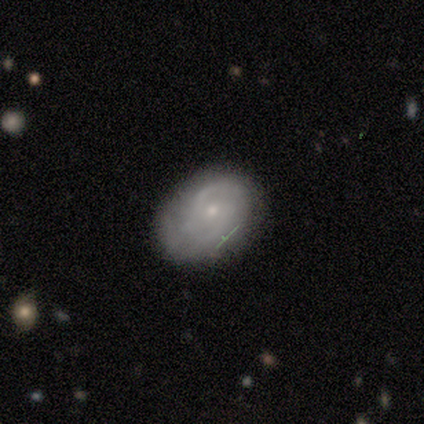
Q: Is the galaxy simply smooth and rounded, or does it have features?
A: featured or disk — 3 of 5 (60%).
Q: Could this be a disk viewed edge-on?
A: no — 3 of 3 (100%).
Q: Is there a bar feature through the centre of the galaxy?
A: no — 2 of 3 (67%).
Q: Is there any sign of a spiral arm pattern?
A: yes — 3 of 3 (100%).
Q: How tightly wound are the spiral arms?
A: medium — 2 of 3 (67%).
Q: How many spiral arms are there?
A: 1 — 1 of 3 (33%, tied with 2 and can't tell).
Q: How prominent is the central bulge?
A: small — 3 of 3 (100%).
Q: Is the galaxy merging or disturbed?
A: none — 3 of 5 (60%).